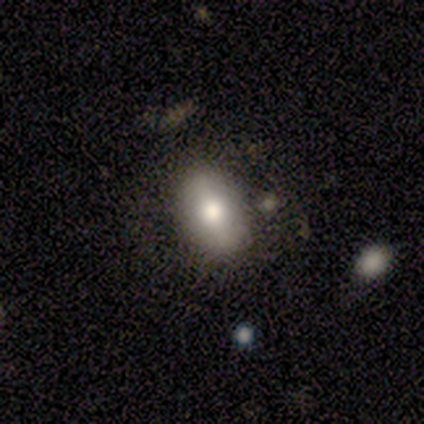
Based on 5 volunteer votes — A smooth galaxy with no disk features (40%, tied with featured or disk) that is in between round and cigar-shaped (100%).

Vote fractions:
- Smooth or featured? smooth: 40% (tied) / featured or disk: 40% (tied) / star or artifact: 20%
- How rounded? in between: 100% / round: 0% / cigar-shaped: 0%
- Merging? none: 100% / minor disturbance: 0% / major disturbance: 0% / merger: 0%